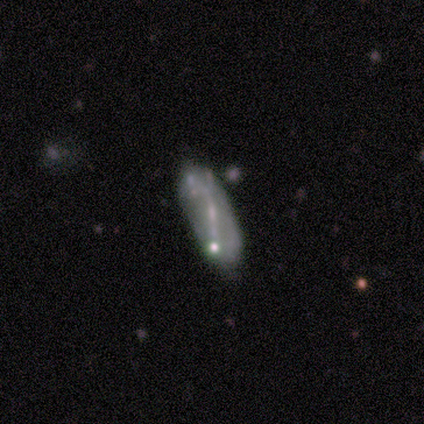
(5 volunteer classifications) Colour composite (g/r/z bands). It shows a smooth galaxy with no disk features (60%) that is in between round and cigar-shaped (67%). Merging: none (40%, tied with minor disturbance).